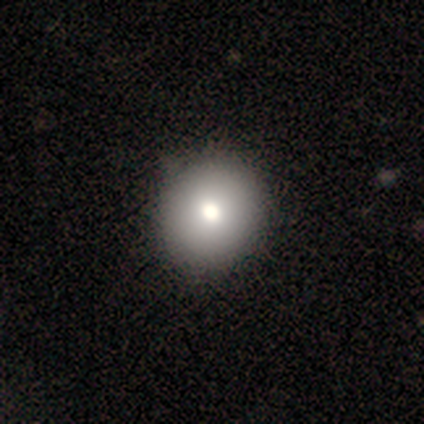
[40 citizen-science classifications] Q: Smooth or featured?
A: smooth (90%); runner-up: featured or disk (8%)
Q: How rounded?
A: round (92%); runner-up: in between (8%)
Q: Merging?
A: none (54%); runner-up: minor disturbance (8%)